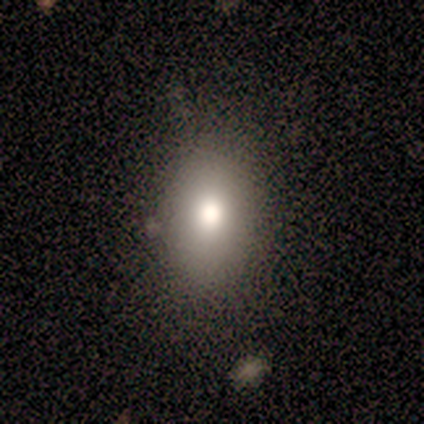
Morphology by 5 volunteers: Smooth or featured? smooth (80%)
How rounded? round (75%)
Merging? none (100%)